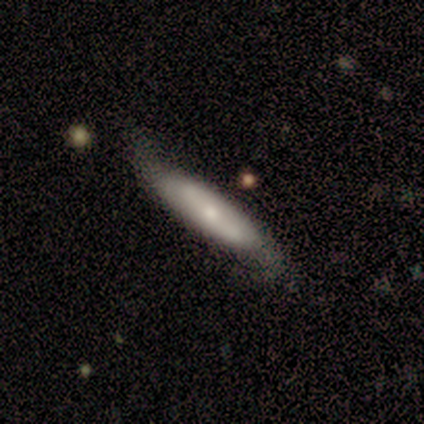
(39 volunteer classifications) smooth-or-featured: smooth: 51% | featured or disk: 46% | star or artifact: 3%
  how-rounded: cigar-shaped: 75% | in between: 25% | round: 0%
  merging: none: 71% | minor disturbance: 24% | major disturbance: 5% | merger: 0%